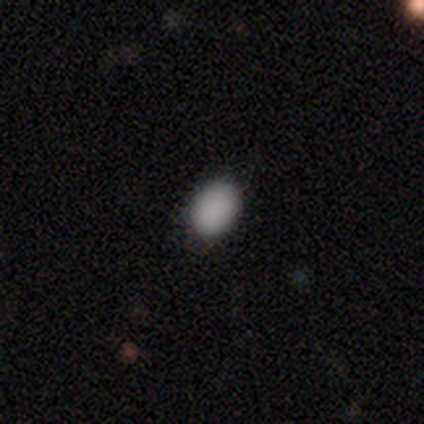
Smooth or featured? 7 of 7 (100%) said smooth. How rounded? 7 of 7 (100%) said in between. Merging? 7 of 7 (100%) said none.